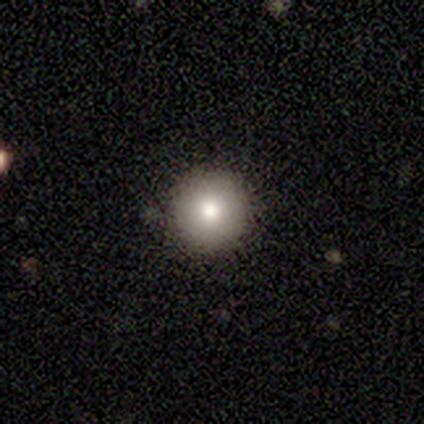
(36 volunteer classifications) smooth_or_featured: smooth (p=0.81) [alt: featured or disk p=0.11]
how_rounded: round (p=1.00)
merging: none (p=0.97) [alt: minor disturbance p=0.03]